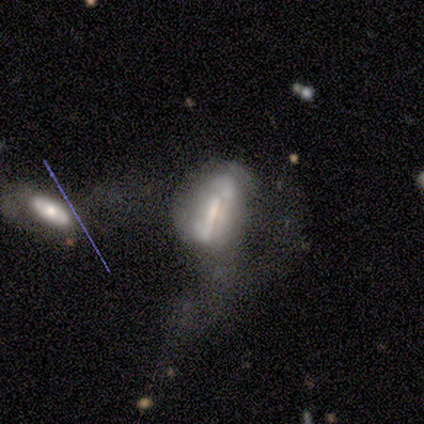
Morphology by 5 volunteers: Volunteers were most divided on "merging": major disturbance: 50%, none: 25%, merger: 25%, minor disturbance: 0%. More confident: how rounded — in between (67%); smooth or featured — smooth (60%).